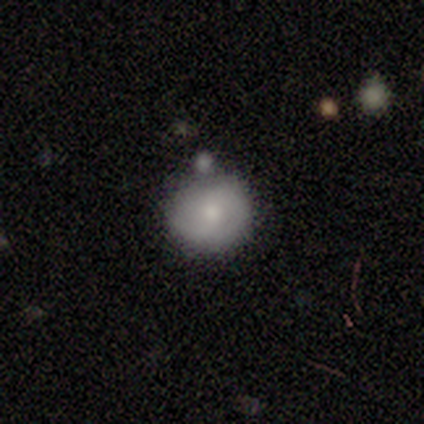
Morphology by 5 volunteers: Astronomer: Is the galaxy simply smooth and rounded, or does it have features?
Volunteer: smooth — 60% (runner-up: featured or disk, 40%).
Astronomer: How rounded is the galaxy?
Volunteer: round — 67%.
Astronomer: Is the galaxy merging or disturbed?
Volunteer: none — 60% (runner-up: minor disturbance, 40%).